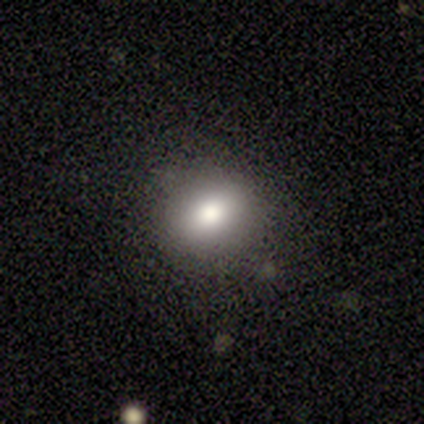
smooth-or-featured: smooth: 62% | star or artifact: 38% | featured or disk: 0%
  how-rounded: round: 80% | in between: 20% | cigar-shaped: 0%
  merging: none: 100% | minor disturbance: 0% | major disturbance: 0% | merger: 0%